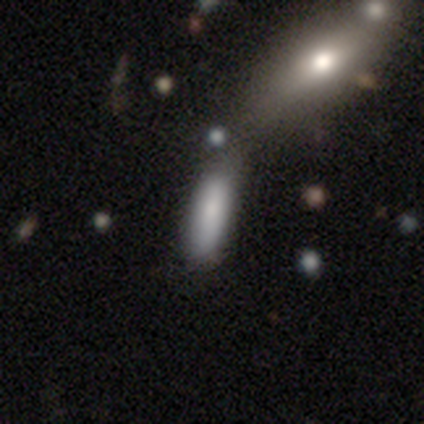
This appears to be a smooth galaxy with no disk features (100%) that is cigar-shaped (75%). Merging: none (50%, tied with merger).